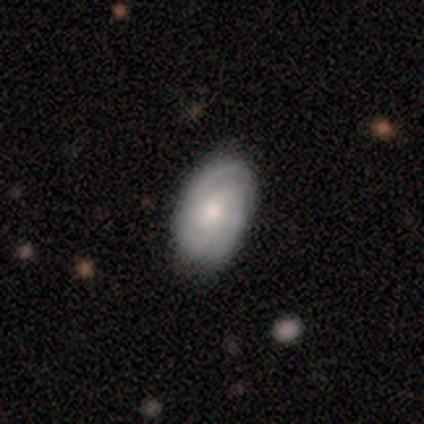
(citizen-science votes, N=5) This appears to be a featured or disk galaxy (100%) with no bar (80%), 2 (40%, tied with 3) tight (60%) spiral arms (100%) and a moderate central bulge (40%, tied with small). Merging: none (100%).